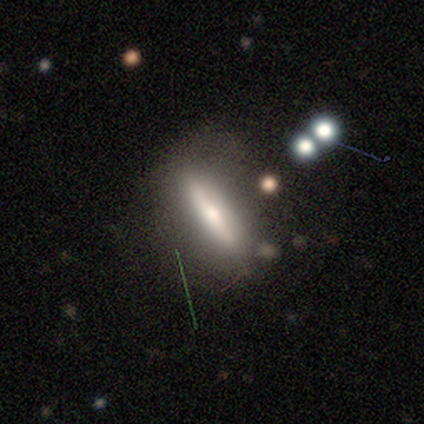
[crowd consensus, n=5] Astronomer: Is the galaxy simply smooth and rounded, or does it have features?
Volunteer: featured or disk — 80%.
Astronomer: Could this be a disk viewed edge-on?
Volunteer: yes — 100%.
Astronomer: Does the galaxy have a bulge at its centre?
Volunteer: rounded — 100%.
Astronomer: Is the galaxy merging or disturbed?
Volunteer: none — 60%.